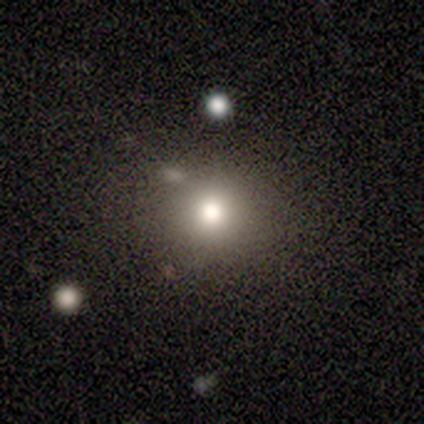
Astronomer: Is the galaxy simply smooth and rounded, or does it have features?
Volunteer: smooth — 40%, tied with star or artifact at 40%.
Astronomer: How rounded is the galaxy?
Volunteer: round — 100%.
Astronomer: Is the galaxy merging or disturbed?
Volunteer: none — 100%.